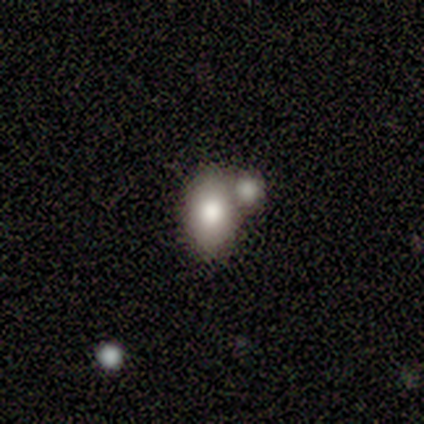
A smooth galaxy with no disk features (86%) that is in between round and cigar-shaped (83%). Merging: none (67%).